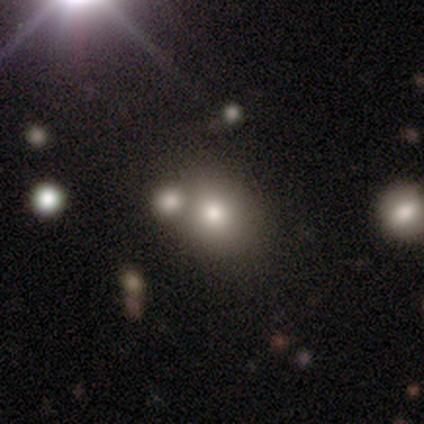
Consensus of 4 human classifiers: Smooth or featured? smooth (75%)
How rounded? round (67%)
Merging? merger (67%)